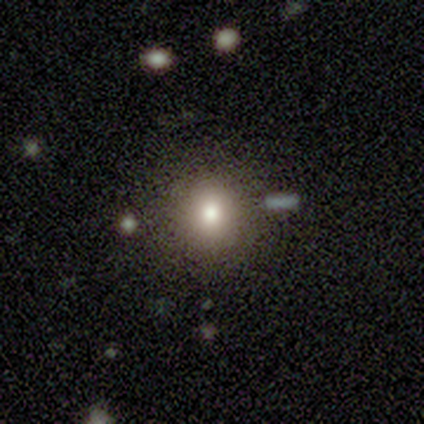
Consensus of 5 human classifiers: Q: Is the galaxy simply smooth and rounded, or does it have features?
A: star or artifact — 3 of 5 (60%).